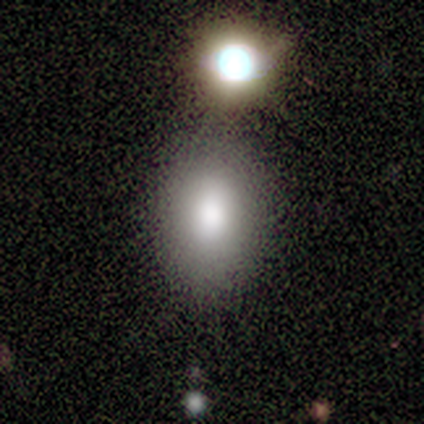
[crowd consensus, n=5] Smooth or featured?
  - smooth: 100% *
  - featured or disk: 0%
  - star or artifact: 0%
How rounded?
  - in between: 80% *
  - round: 20%
  - cigar-shaped: 0%
Merging?
  - none: 60% *
  - merger: 40%
  - minor disturbance: 0%
  - major disturbance: 0%